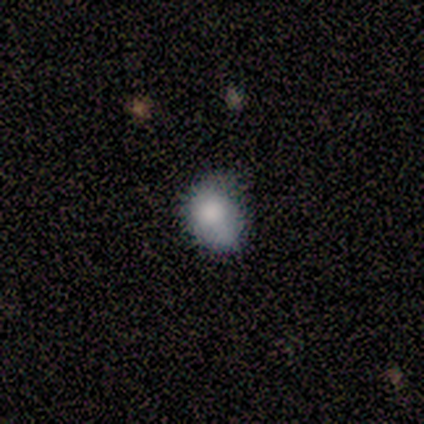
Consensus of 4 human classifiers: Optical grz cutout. It shows a smooth galaxy with no disk features (75%) that is round (67%). Merging: none (75%).